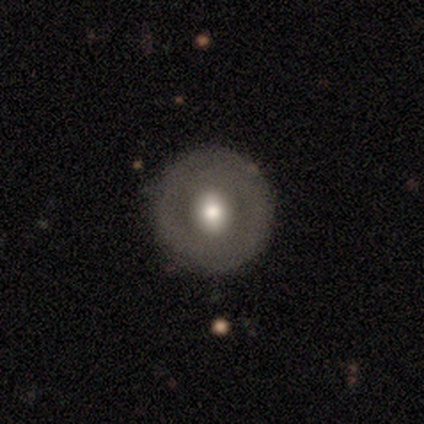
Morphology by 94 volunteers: This is possibly a smooth galaxy (52%). How rounded: clearly round (100%). Merging: clearly none (83%).